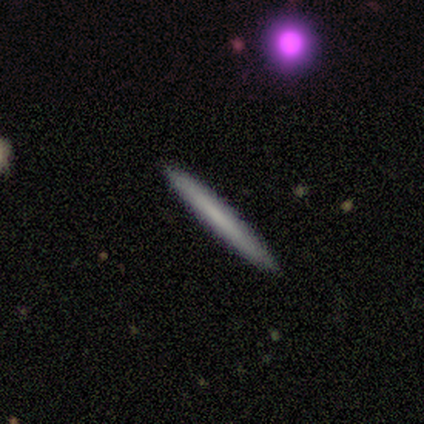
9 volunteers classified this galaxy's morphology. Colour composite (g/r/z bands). It shows a featured or disk galaxy (67%) viewed edge-on (100%) with no central bulge (100%). Merging: none (100%).